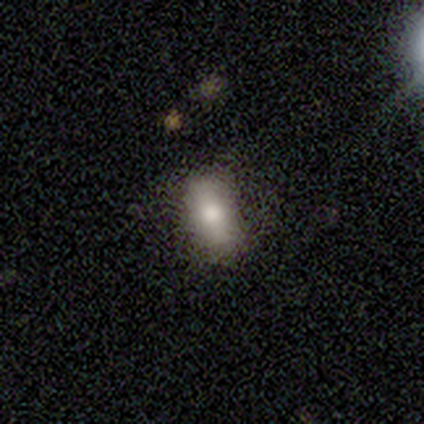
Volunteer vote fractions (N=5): smooth-or-featured: smooth: 40% (tied) | featured or disk: 40% (tied) | star or artifact: 20%
  how-rounded: cigar-shaped: 100% | round: 0% | in between: 0%
  merging: none: 75% | minor disturbance: 25% | major disturbance: 0% | merger: 0%